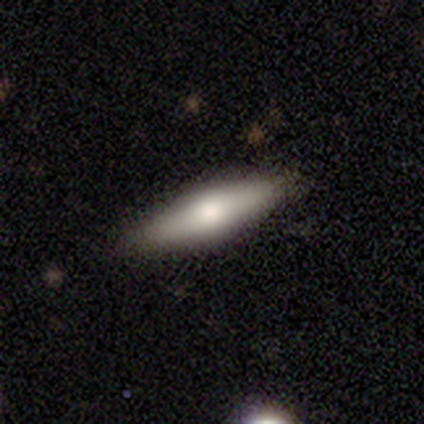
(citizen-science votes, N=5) Smooth or featured? 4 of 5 (80%) said smooth. How rounded? 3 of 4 (75%) said cigar-shaped. Merging? 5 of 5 (100%) said none.